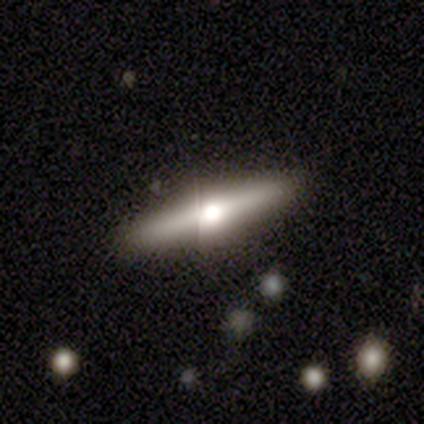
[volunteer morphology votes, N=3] A smooth galaxy with no disk features (100%) that is cigar-shaped (100%).

Vote fractions:
- Smooth or featured? smooth: 100% / featured or disk: 0% / star or artifact: 0%
- How rounded? cigar-shaped: 100% / round: 0% / in between: 0%
- Merging? none: 100% / minor disturbance: 0% / major disturbance: 0% / merger: 0%